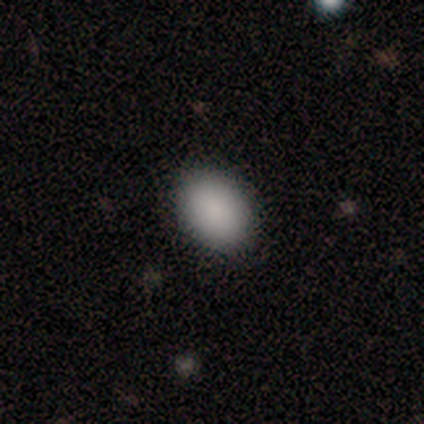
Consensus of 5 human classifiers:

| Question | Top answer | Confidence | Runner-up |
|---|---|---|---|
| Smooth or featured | smooth | 100% | — |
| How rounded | in between | 100% | — |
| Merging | minor disturbance | 60% | none (40%) |